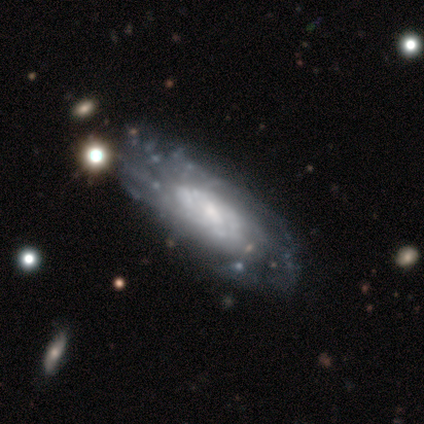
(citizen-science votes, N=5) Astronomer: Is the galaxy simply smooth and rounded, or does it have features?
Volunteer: featured or disk — 80%.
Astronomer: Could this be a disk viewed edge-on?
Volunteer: yes — 50%, tied with no at 50%.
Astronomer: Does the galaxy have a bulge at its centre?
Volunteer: rounded — 100%.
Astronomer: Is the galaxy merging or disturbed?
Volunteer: none — 80%.